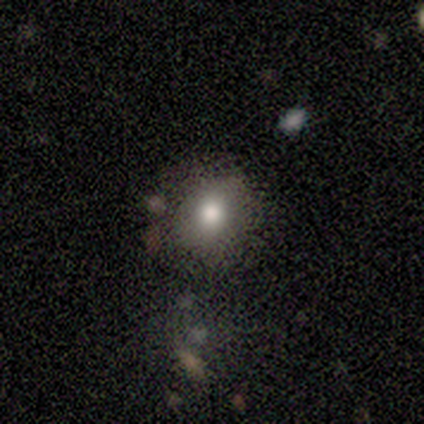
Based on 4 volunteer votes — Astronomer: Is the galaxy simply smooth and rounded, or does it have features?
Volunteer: smooth — 75%.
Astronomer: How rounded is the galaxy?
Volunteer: round — 67%.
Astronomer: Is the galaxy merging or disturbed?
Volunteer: minor disturbance — 67%.